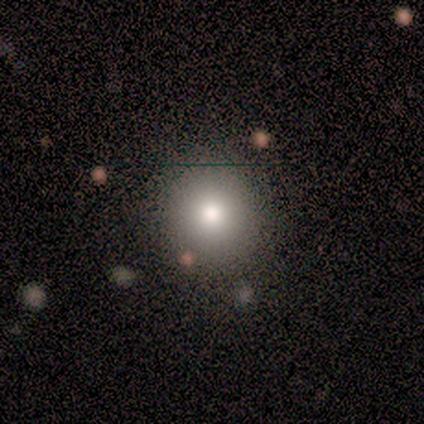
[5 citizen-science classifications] smooth_or_featured: smooth (p=0.60) [alt: star or artifact p=0.40]
how_rounded: round (p=1.00)
merging: none (p=1.00)